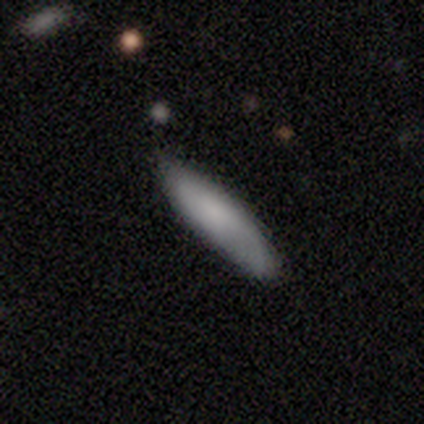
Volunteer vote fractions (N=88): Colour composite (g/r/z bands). It shows a smooth galaxy with no disk features (68%) that is cigar-shaped (67%). Merging: none (86%).